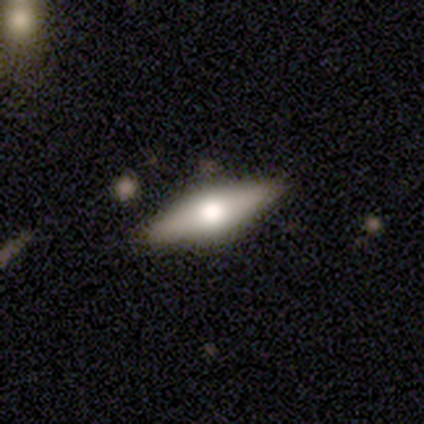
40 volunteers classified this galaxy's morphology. Q: Smooth or featured?
A: featured or disk (50%); runner-up: smooth (48%)
Q: Edge-on disk?
A: yes (75%); runner-up: no (25%)
Q: Edge-on bulge?
A: rounded (100%)
Q: Merging?
A: none (62%); runner-up: minor disturbance (3%)